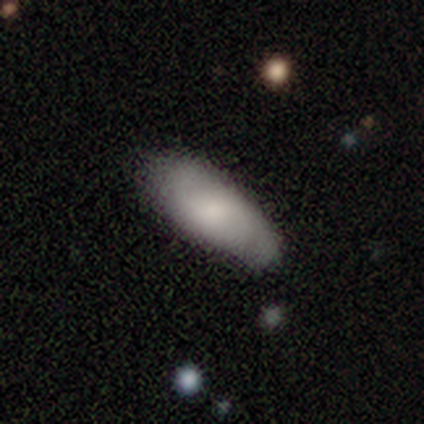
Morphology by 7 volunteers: This appears to be a smooth galaxy with no disk features (71%) that is in between round and cigar-shaped (100%). Merging: none (57%).